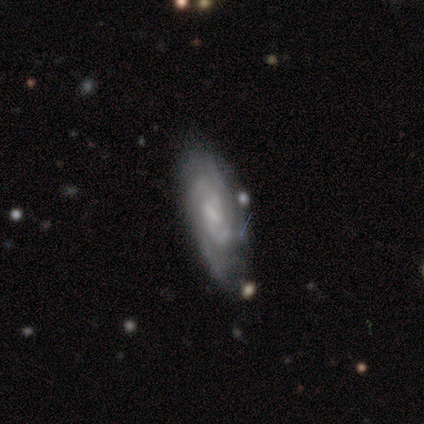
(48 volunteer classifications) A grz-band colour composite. It shows a featured or disk galaxy (88%) with a weak bar (70%), 2 (43%) tight (68%) spiral arms (100%) and a small central bulge (57%). Merging: none (67%).